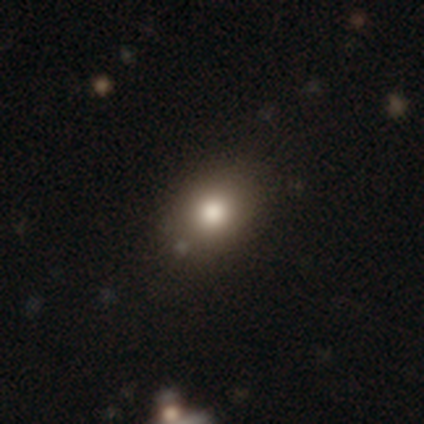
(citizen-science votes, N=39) Smooth or featured? 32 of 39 (82%) said smooth. How rounded? 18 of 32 (56%) said in between. Merging? 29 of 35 (83%) said none.